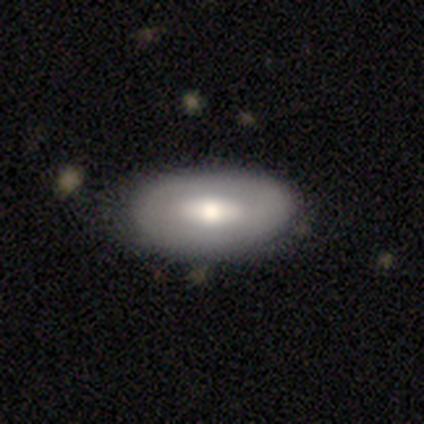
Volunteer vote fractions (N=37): A smooth galaxy with no disk features (51%) that is in between round and cigar-shaped (100%).

Vote fractions:
- Smooth or featured? smooth: 51% / featured or disk: 46% / star or artifact: 3%
- How rounded? in between: 100% / round: 0% / cigar-shaped: 0%
- Merging? none: 92% / minor disturbance: 8% / major disturbance: 0% / merger: 0%